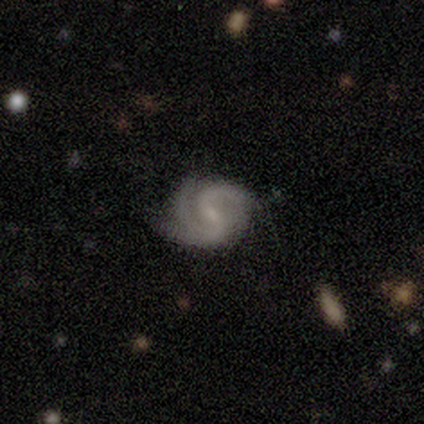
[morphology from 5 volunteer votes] featured or disk 100%, smooth 0%, star or artifact 0%. Down the decision tree: edge-on disk — no (100%); bar — strong (40%, tied with weak); spiral arms — yes (100%); spiral arm count — 2 (80%); spiral winding — medium (60%); bulge size — small (80%); merging — none (60%).